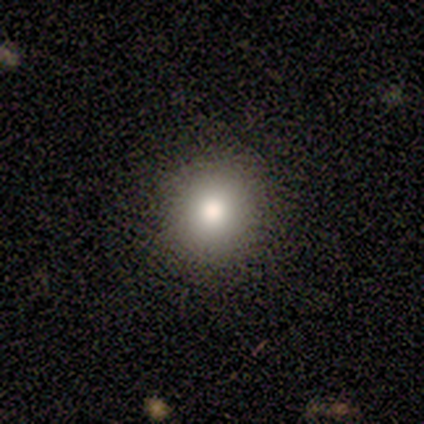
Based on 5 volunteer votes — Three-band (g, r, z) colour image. It shows a featured or disk galaxy (60%) with no bar (100%), no spiral arms (100%) and a large central bulge (67%). Merging: none (100%).